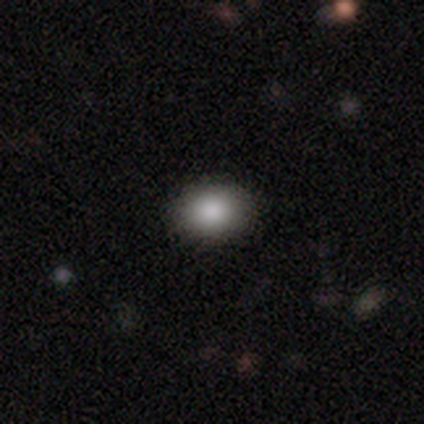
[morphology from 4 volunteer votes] Smooth or featured? 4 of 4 (100%) said smooth. How rounded? 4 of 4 (100%) said in between. Merging? 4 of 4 (100%) said none.